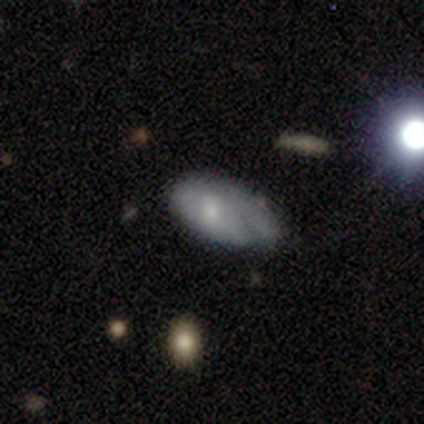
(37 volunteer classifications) Smooth or featured?
  - featured or disk: 49% *
  - smooth: 46%
  - star or artifact: 5%
Edge-on disk?
  - no: 94% *
  - yes: 6%
Bar?
  - no: 76% *
  - strong: 12%
  - weak: 12%
Spiral arms?
  - no: 65% *
  - yes: 35%
Bulge size?
  - small: 41% *
  - large: 24%
  - moderate: 24%
  - none: 12%
  - dominant: 0%
Merging?
  - minor disturbance: 63% *
  - none: 29%
  - major disturbance: 9%
  - merger: 0%